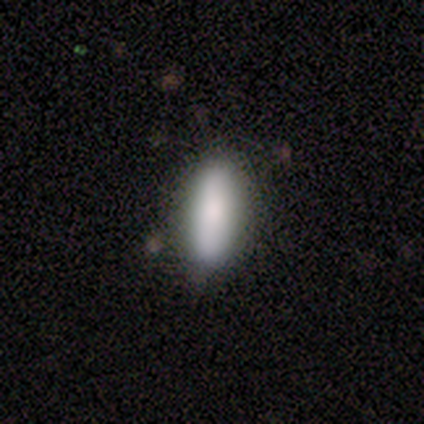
smooth_or_featured: smooth (p=0.80) [alt: featured or disk p=0.20]
how_rounded: in between (p=0.50) [tied with: cigar-shaped p=0.50]
merging: none (p=0.60) [alt: minor disturbance p=0.40]